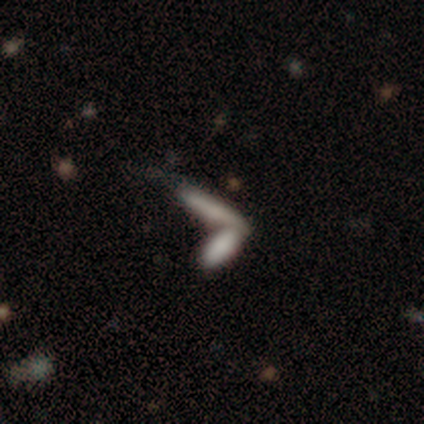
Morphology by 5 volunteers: Overall: smooth (80%). How rounded: cigar-shaped (100%). Merging: none (75%).